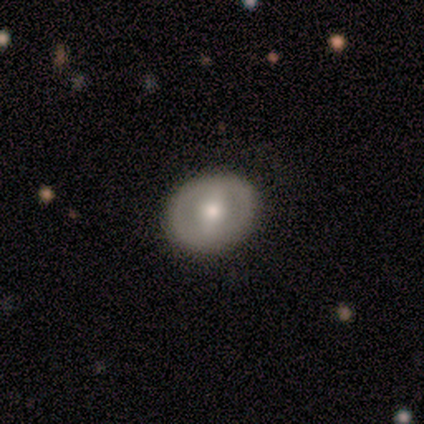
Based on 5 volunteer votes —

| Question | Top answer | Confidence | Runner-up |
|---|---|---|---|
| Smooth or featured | featured or disk | 60% | smooth (40%) |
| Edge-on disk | no | 100% | — |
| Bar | strong | 67% | weak (33%) |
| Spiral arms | no | 67% | yes (33%) |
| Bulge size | moderate | 100% | — |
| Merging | none | 100% | — |